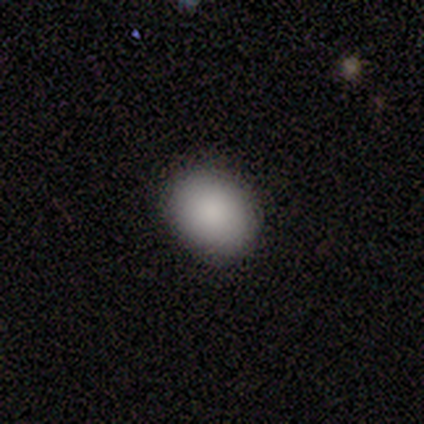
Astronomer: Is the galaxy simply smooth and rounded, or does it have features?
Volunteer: smooth — 100%.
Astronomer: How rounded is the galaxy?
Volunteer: in between — 67%.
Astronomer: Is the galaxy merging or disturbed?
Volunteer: none — 100%.